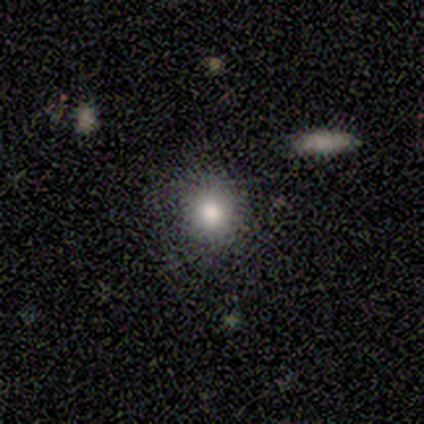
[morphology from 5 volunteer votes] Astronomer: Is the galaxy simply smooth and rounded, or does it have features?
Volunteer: smooth — 80%.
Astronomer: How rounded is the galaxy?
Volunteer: round — 100%.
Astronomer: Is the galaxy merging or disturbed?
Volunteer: none — 50%.